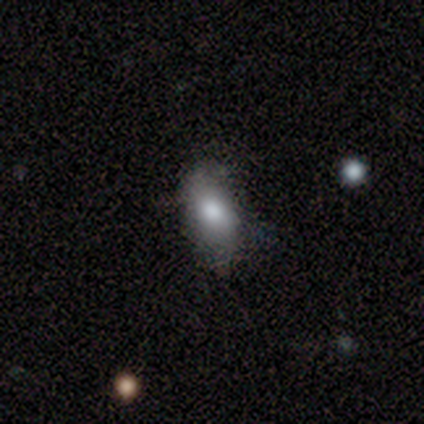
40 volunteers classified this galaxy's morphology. A smooth galaxy with no disk features (75%) that is in between round and cigar-shaped (97%).

Vote fractions:
- Smooth or featured? smooth: 75% / featured or disk: 20% / star or artifact: 5%
- How rounded? in between: 97% / round: 3% / cigar-shaped: 0%
- Merging? none: 63% / minor disturbance: 18% / major disturbance: 3% / merger: 3%